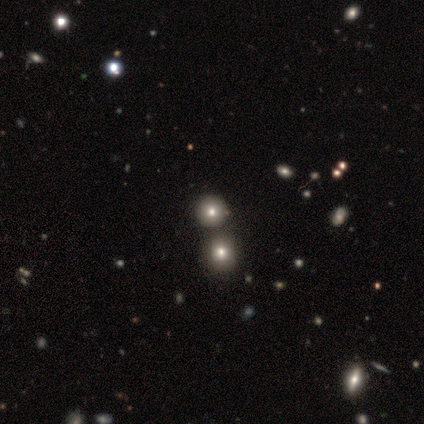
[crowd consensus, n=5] Smooth or featured: smooth — 80% (star or artifact — 20%)
How rounded: round — 100%
Merging: merger — 75% (none — 25%)